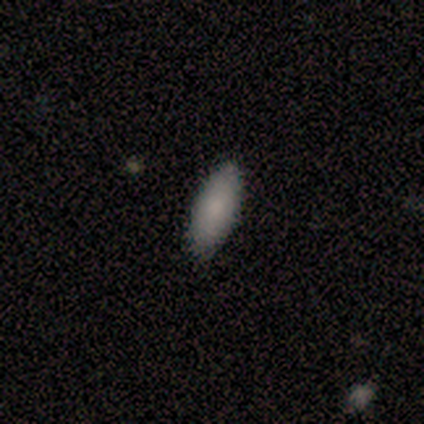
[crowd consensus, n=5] smooth-or-featured: smooth: 100% | featured or disk: 0% | star or artifact: 0%
  how-rounded: in between: 80% | cigar-shaped: 20% | round: 0%
  merging: none: 100% | minor disturbance: 0% | major disturbance: 0% | merger: 0%